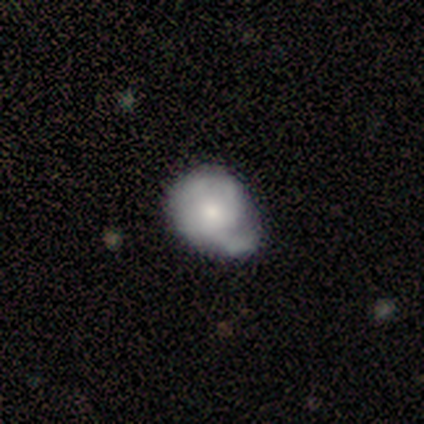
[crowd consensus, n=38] Volunteers were most divided on "smooth or featured": featured or disk: 50%, smooth: 45%, star or artifact: 5%. Remaining: edge-on disk — no (100%); bar — no (89%); spiral arms — no (53%); bulge size — moderate (47%); merging — minor disturbance (42%).